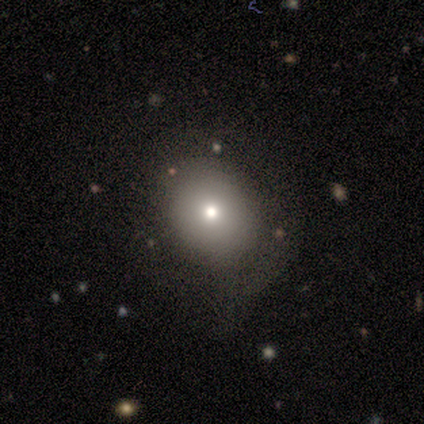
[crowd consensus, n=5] Smooth or featured?
  - smooth: 80% *
  - star or artifact: 20%
  - featured or disk: 0%
How rounded?
  - round: 50% * (tied)
  - in between: 50% * (tied)
  - cigar-shaped: 0%
Merging?
  - none: 100% *
  - minor disturbance: 0%
  - major disturbance: 0%
  - merger: 0%